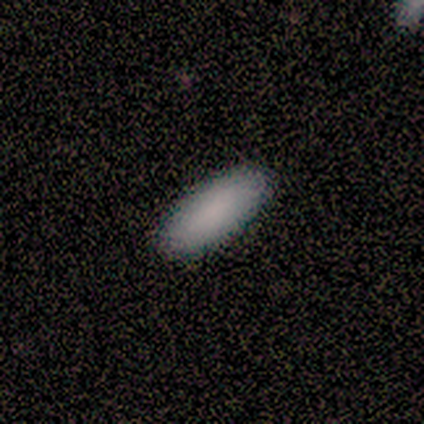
Smooth or featured?
  - smooth: 100% *
  - featured or disk: 0%
  - star or artifact: 0%
How rounded?
  - in between: 100% *
  - round: 0%
  - cigar-shaped: 0%
Merging?
  - none: 100% *
  - minor disturbance: 0%
  - major disturbance: 0%
  - merger: 0%